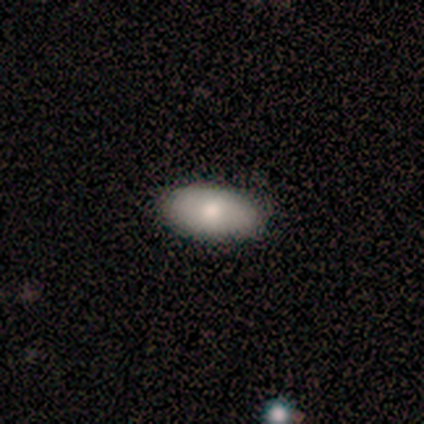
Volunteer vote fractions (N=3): smooth_or_featured: smooth (p=1.00)
how_rounded: in between (p=1.00)
merging: none (p=1.00)